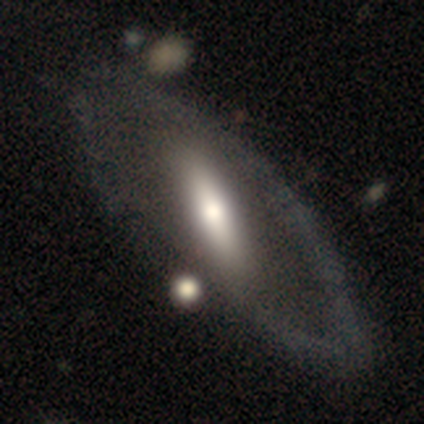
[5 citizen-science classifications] featured or disk 80%, smooth 20%, star or artifact 0%. Down the decision tree: edge-on disk — yes (50%, tied with no); edge-on bulge — rounded (100%); merging — none (60%).